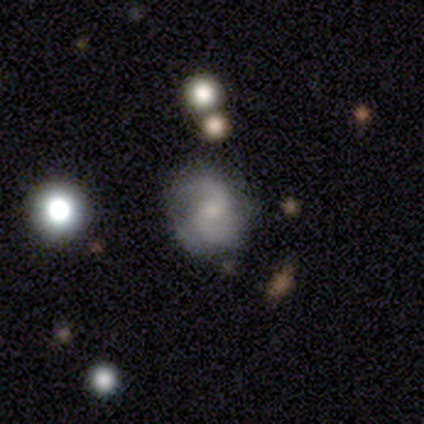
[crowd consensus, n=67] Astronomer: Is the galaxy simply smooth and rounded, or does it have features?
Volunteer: featured or disk — 82%.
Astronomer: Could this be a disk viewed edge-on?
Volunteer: no — 95%.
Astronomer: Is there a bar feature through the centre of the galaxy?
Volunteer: no — 62%.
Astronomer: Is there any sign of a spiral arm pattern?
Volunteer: yes — 90%.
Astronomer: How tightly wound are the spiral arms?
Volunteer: medium — 55%.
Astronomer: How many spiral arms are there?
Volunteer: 2 — 89%.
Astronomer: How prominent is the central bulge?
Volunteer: small — 46% (runner-up: moderate, 35%).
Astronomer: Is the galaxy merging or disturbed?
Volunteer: none — 62%.